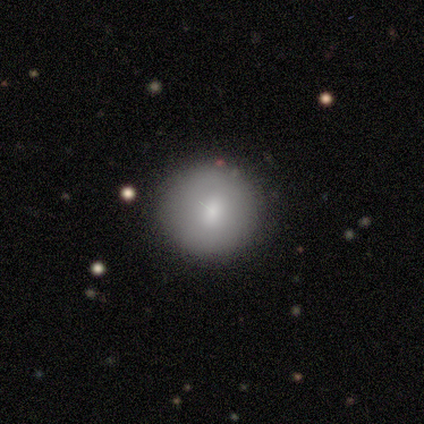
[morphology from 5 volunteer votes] Smooth or featured? 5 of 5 (100%) said smooth. How rounded? 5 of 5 (100%) said round. Merging? 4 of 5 (80%) said none.